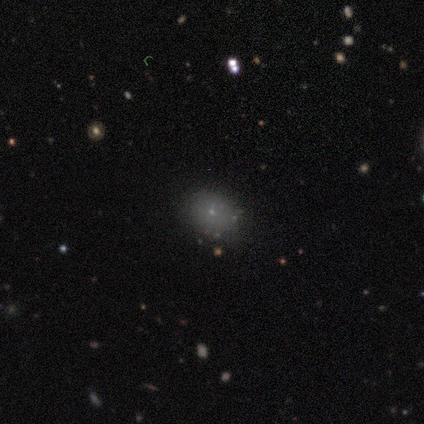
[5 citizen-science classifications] Morphology: type=smooth (80%); roundness=in between (75%); merging=none (60%).